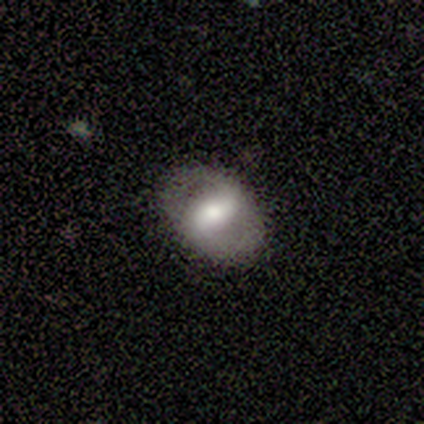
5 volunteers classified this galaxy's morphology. smooth_or_featured: featured or disk (p=0.80) [alt: star or artifact p=0.20]
disk_edge_on: no (p=1.00)
bar: strong (p=0.75) [alt: weak p=0.25]
has_spiral_arms: yes (p=0.75) [alt: no p=0.25]
spiral_winding: medium (p=1.00)
spiral_arm_count: 2 (p=1.00)
bulge_size: large (p=0.75) [alt: moderate p=0.25]
merging: none (p=1.00)